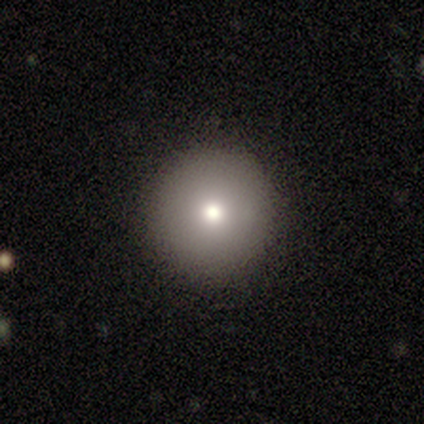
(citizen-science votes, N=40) Q: Smooth or featured?
A: smooth (72%); runner-up: featured or disk (18%)
Q: How rounded?
A: round (100%)
Q: Merging?
A: none (100%)